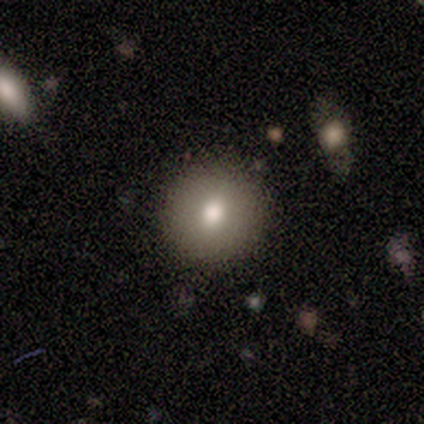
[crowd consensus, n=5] Smooth or featured? 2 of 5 (40%, tied with featured or disk) said smooth. How rounded? 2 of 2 (100%) said round. Merging? 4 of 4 (100%) said none.